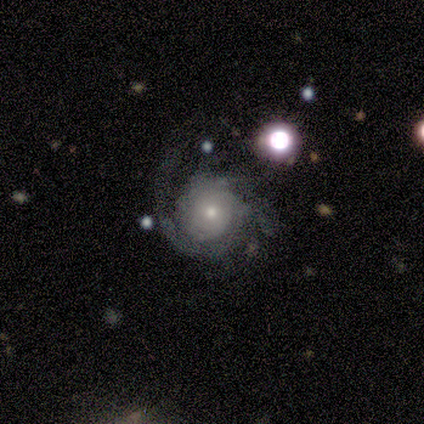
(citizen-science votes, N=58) Volunteers were most divided on "merging": none: 41%, major disturbance: 31%, minor disturbance: 28%, merger: 0%. Remaining: edge-on disk — no (98%); spiral arms — yes (93%); bar — no (89%); smooth or featured — featured or disk (81%); spiral winding — tight (63%); bulge size — small (57%); spiral arm count — can't tell (42%).